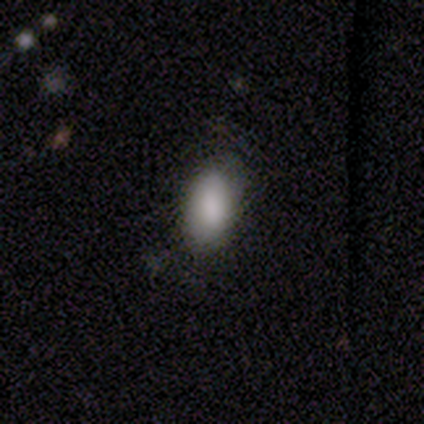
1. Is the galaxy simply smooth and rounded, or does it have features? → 100% smooth, 0% featured or disk, 0% star or artifact.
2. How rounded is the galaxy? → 100% in between, 0% round, 0% cigar-shaped.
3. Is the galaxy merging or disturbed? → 100% none, 0% minor disturbance, 0% major disturbance, 0% merger.